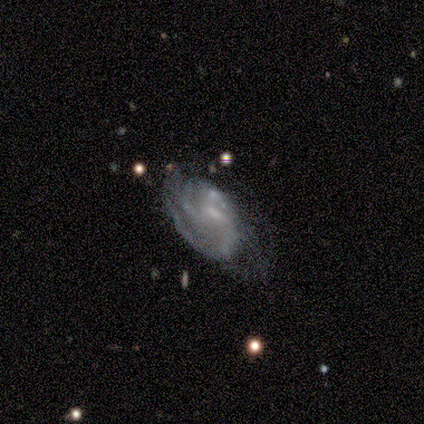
featured or disk 84%, star or artifact 9%, smooth 6%. Down the decision tree: edge-on disk — no (100%); bar — no (52%); spiral arms — yes (89%); spiral arm count — can't tell (54%); spiral winding — tight (46%); bulge size — small (48%); merging — none (52%).